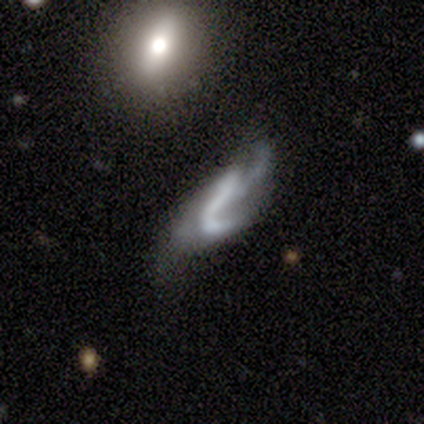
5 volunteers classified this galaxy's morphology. This appears to be a featured or disk galaxy (60%) with no bar (100%), no spiral arms (67%) and no central bulge (67%). Merging: none (60%).